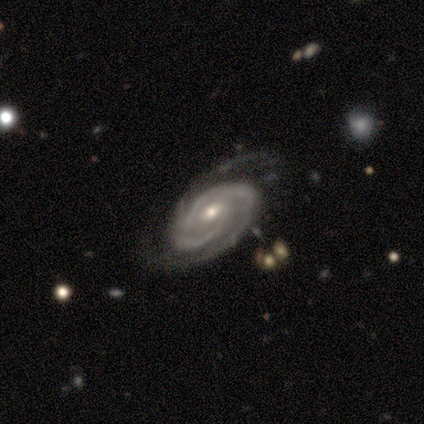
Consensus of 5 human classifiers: Smooth or featured: featured or disk — 100%
Edge-on disk: no — 100%
Bar: no — 60% (weak — 40%)
Spiral arms: yes — 100%
Spiral winding: tight — 60% (medium — 40%)
Spiral arm count: 2 — 100%
Bulge size: moderate — 60% (small — 40%)
Merging: none — 100%